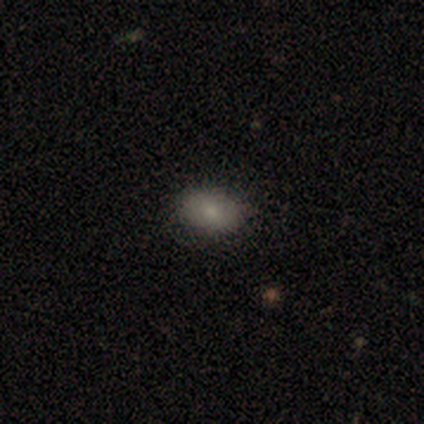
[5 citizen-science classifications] This appears to be a smooth galaxy with no disk features (60%) that is in between round and cigar-shaped (67%). Merging: none (100%).